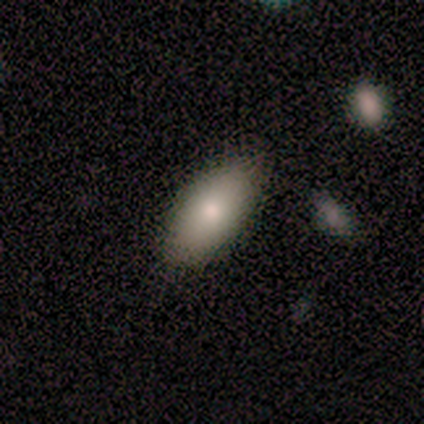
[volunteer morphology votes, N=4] This is likely a smooth galaxy (75%). How rounded: clearly in between (100%). Merging: clearly none (100%).